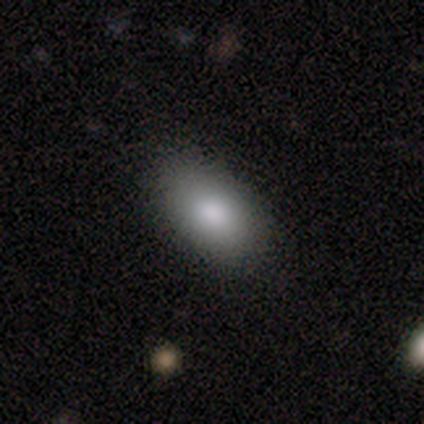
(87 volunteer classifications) This appears to be a smooth galaxy with no disk features (83%) that is in between round and cigar-shaped (94%). Merging: none (78%).